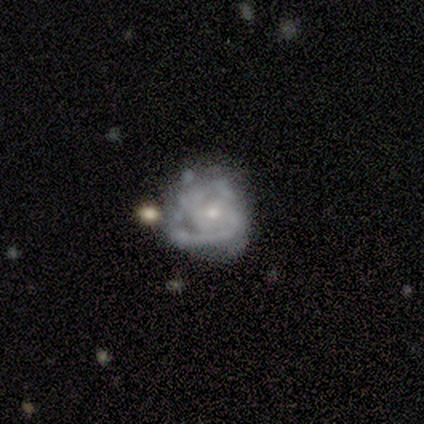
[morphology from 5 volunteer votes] Smooth or featured? featured or disk (100%)
Edge-on disk? no (100%)
Bar? no (60%)
Spiral arms? yes (80%)
Spiral winding? medium (50%)
Spiral arm count? 2 (75%)
Bulge size? small (60%)
Merging? major disturbance (40%)